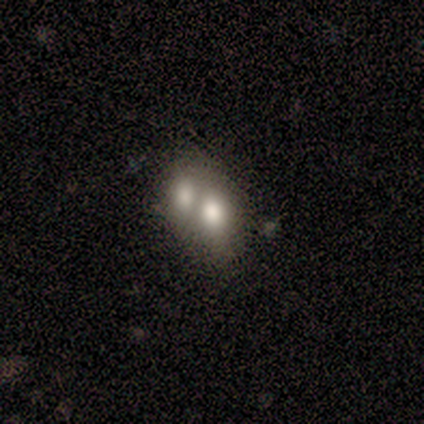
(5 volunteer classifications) Smooth or featured: smooth — 80% (featured or disk — 20%)
How rounded: in between — 75% (round — 25%)
Merging: merger — 100%